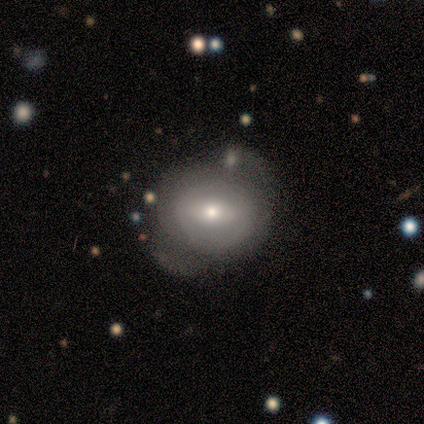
This appears to be a featured or disk galaxy (55%) with a strong bar (50%), no spiral arms (67%) and a moderate central bulge (50%, tied with small). Merging: none (55%).